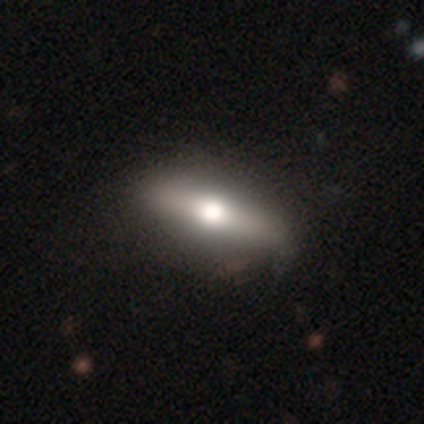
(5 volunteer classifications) Overall: featured or disk (60%; smooth 40%). Edge-on disk: yes (67%; no 33%). Edge-on bulge: rounded (100%). Merging: none (80%).